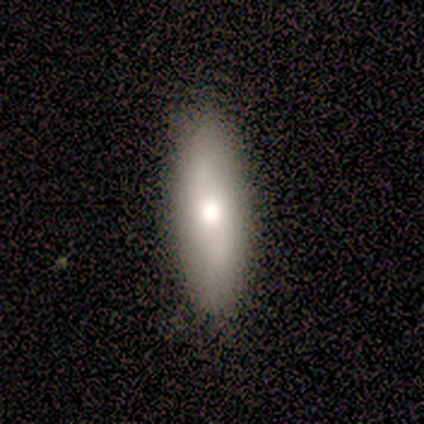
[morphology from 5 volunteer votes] type=smooth (100%); roundness=in between (80%); merging=none (100%).